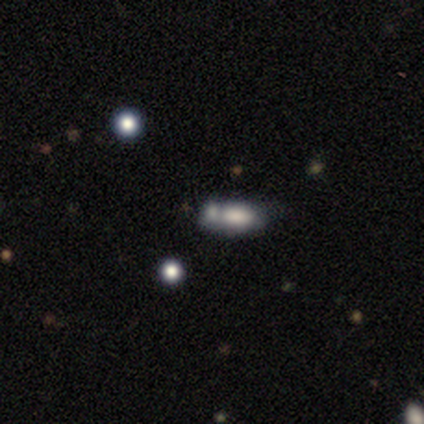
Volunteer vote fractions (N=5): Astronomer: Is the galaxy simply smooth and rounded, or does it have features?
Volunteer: smooth — 80%.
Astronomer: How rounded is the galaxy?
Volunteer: in between — 75%.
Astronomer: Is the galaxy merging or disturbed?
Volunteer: major disturbance — 50%, tied with merger at 50%.